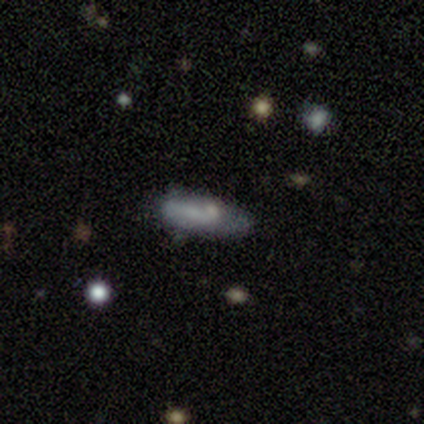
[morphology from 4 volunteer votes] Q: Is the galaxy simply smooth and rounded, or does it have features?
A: smooth — 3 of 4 (75%).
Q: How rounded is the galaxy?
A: in between — 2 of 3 (67%).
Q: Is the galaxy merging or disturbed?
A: minor disturbance — 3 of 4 (75%).